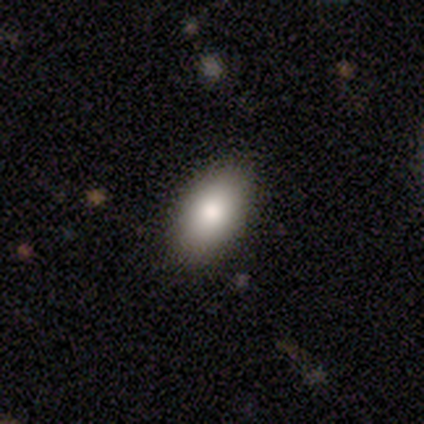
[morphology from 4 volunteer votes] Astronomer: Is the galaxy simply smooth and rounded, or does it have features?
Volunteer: smooth — 75%.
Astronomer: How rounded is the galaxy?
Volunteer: in between — 100%.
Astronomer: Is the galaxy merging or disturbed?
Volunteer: none — 100%.